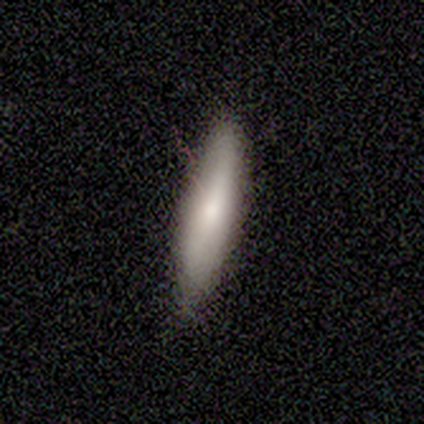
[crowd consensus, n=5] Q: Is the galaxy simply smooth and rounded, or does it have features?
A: smooth — 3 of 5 (60%).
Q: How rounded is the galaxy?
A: cigar-shaped — 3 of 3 (100%).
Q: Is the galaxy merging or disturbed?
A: none — 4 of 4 (100%).